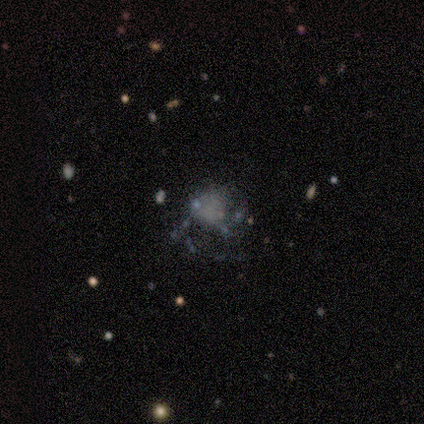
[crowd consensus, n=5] Morphology: type=smooth (60%); roundness=in between (67%); merging=none (50%).